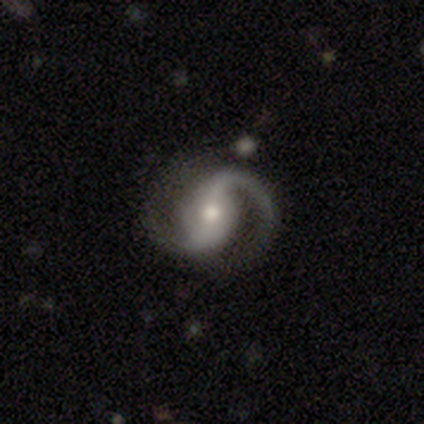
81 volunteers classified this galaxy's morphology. Smooth or featured? featured or disk (95%)
Edge-on disk? no (99%)
Bar? no (41%)
Spiral arms? yes (99%)
Spiral winding? medium (51%)
Spiral arm count? 2 (81%)
Bulge size? moderate (58%)
Merging? none (39%)